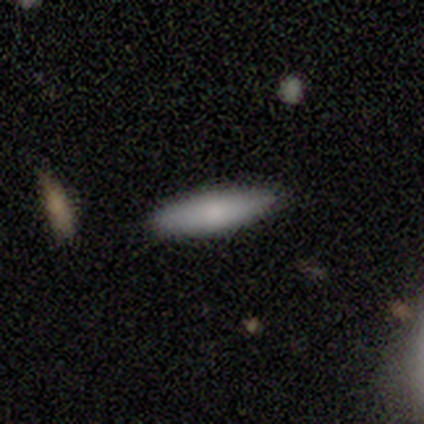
Volunteers were most divided on "how rounded": cigar-shaped: 67%, in between: 33%, round: 0%. More confident: smooth or featured — smooth (75%); merging — none (75%).